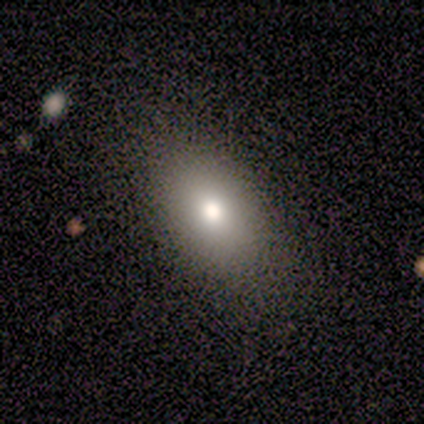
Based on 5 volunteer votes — Volunteers were most divided on "how rounded": in between: 80%, round: 20%, cigar-shaped: 0%. More confident: smooth or featured — smooth (100%); merging — none (80%).